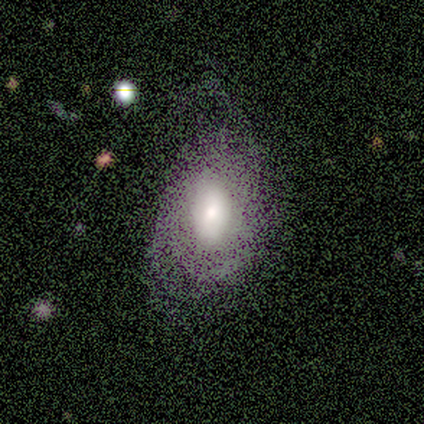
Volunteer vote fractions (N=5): A featured or disk galaxy (60%) with no bar (67%), 2 (50%, tied with can't tell) medium (50%, tied with loose) spiral arms (67%) and a moderate central bulge (67%).

Vote fractions:
- Smooth or featured? featured or disk: 60% / smooth: 40% / star or artifact: 0%
- Edge-on disk? no: 100% / yes: 0%
- Bar? no: 67% / weak: 33% / strong: 0%
- Spiral arms? yes: 67% / no: 33%
- Spiral winding? medium: 50% (tied) / loose: 50% (tied) / tight: 0%
- Spiral arm count? 2: 50% (tied) / can't tell: 50% (tied) / 1: 0% / 3: 0% / 4: 0% / more than 4: 0%
- Bulge size? moderate: 67% / small: 33% / dominant: 0% / large: 0% / none: 0%
- Merging? none: 60% / minor disturbance: 20% / major disturbance: 20% / merger: 0%